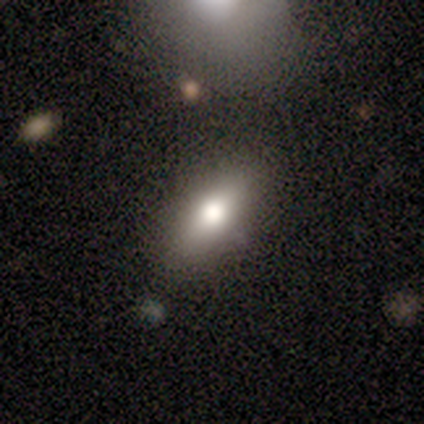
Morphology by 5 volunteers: smooth 60%, featured or disk 40%, star or artifact 0%. Down the decision tree: how rounded — in between (67%); merging — none (80%).